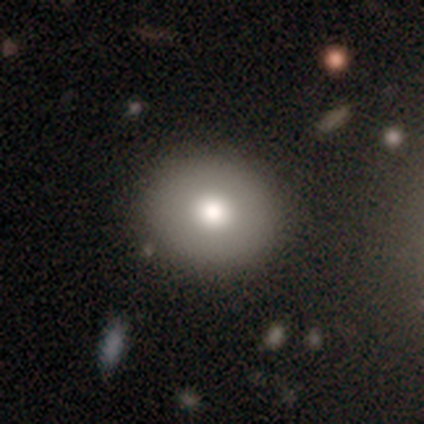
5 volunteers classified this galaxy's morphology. Q: Smooth or featured?
A: smooth (40%); tied with: featured or disk (40%)
Q: How rounded?
A: round (100%)
Q: Merging?
A: none (100%)